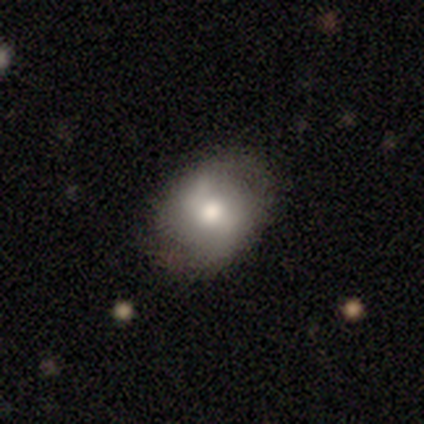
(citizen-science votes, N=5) smooth-or-featured: featured or disk: 60% | smooth: 20% | star or artifact: 20%
  disk-edge-on: no: 100% | yes: 0%
    bar: weak: 67% | no: 33% | strong: 0%
    has-spiral-arms: no: 67% | yes: 33%
    bulge-size: moderate: 100% | dominant: 0% | large: 0% | small: 0% | none: 0%
  merging: none: 100% | minor disturbance: 0% | major disturbance: 0% | merger: 0%